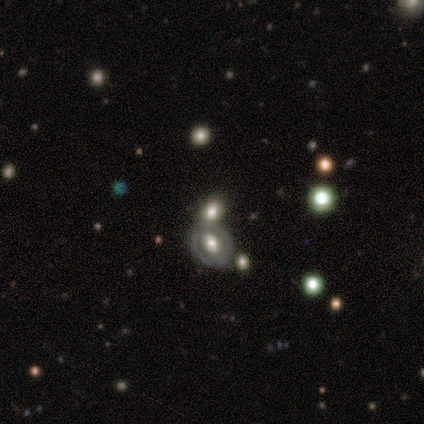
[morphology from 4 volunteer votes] This is likely a featured or disk galaxy (75%). It is clearly not viewed edge-on (100%). Bar: likely no (67%). Spiral arm pattern: likely no (67%). Central bulge: clearly moderate (100%). Merging: likely merger (75%).